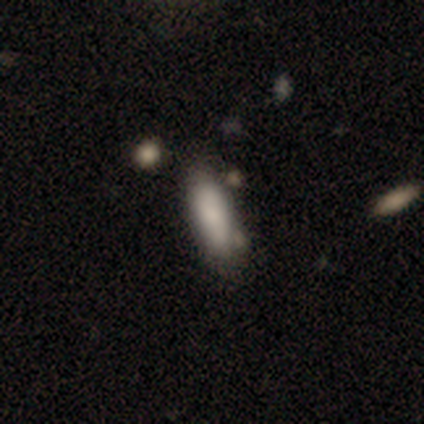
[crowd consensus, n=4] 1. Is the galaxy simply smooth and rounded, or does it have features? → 100% smooth, 0% featured or disk, 0% star or artifact.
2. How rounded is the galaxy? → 75% cigar-shaped, 25% in between, 0% round.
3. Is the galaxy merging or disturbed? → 75% none, 25% major disturbance, 0% minor disturbance, 0% merger.